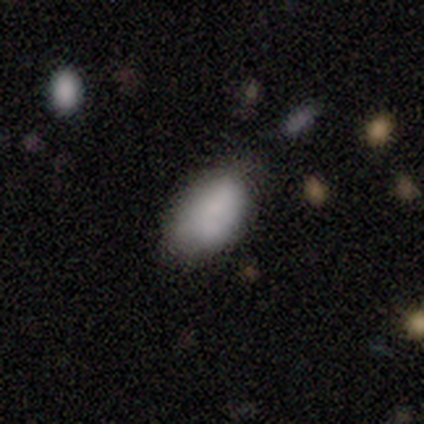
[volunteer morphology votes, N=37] Overall: smooth (84%). How rounded: in between (97%). Merging: none (71%).